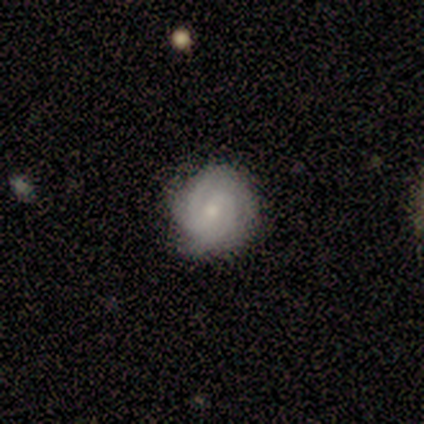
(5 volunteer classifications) This appears to be a featured or disk galaxy (80%) with a weak bar (75%), 2 (50%) tight (75%) spiral arms (100%) and a small central bulge (50%). Merging: none (60%).